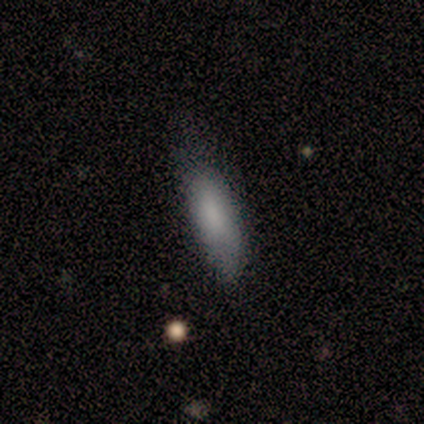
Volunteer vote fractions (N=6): Q: Smooth or featured?
A: smooth (100%)
Q: How rounded?
A: in between (50%); tied with: cigar-shaped (50%)
Q: Merging?
A: minor disturbance (67%); runner-up: none (33%)